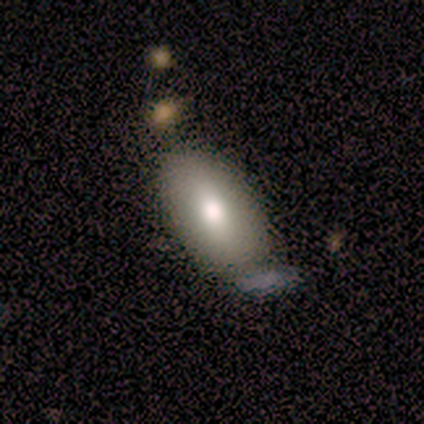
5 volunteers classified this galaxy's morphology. This appears to be a smooth galaxy with no disk features (100%) that is in between round and cigar-shaped (100%). Merging: none (60%).